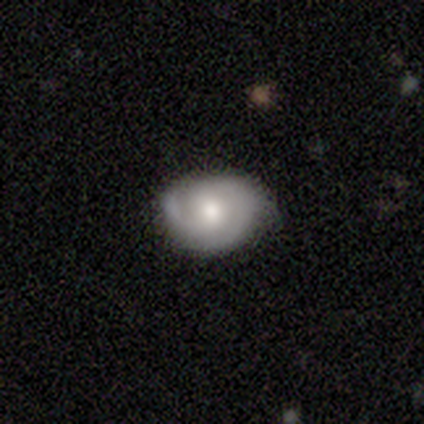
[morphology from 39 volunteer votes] Smooth or featured? featured or disk (69%)
Edge-on disk? no (96%)
Bar? no (77%)
Spiral arms? yes (85%)
Spiral winding? medium (45%)
Spiral arm count? 2 (73%)
Bulge size? moderate (62%)
Merging? none (51%)